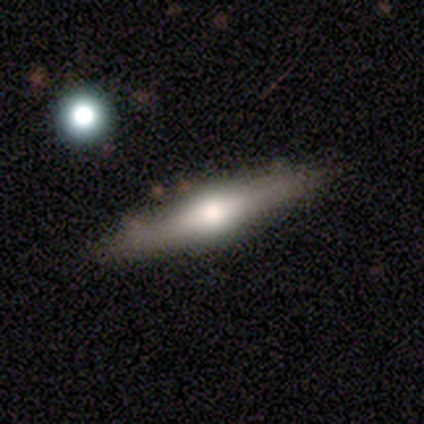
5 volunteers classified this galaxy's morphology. smooth_or_featured: smooth (p=0.60) [alt: featured or disk p=0.40]
how_rounded: cigar-shaped (p=1.00)
merging: none (p=0.60) [alt: minor disturbance p=0.20]